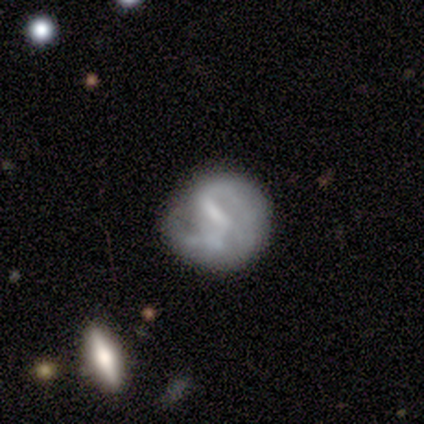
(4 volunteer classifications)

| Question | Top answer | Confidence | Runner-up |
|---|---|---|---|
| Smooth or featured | featured or disk | 50% | smooth (25%) |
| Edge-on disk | no | 100% | — |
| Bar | weak | 50% | tied: no (50%) |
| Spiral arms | yes | 50% | tied: no (50%) |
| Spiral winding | medium | 100% | — |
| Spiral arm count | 2 | 100% | — |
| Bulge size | small | 50% | tied: none (50%) |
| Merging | none | 67% | minor disturbance (33%) |